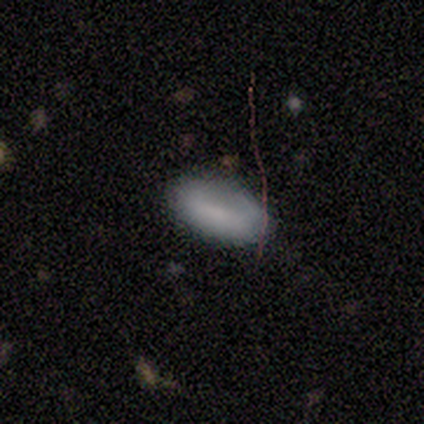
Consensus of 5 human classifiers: Smooth or featured? smooth (60%)
How rounded? in between (100%)
Merging? none (100%)